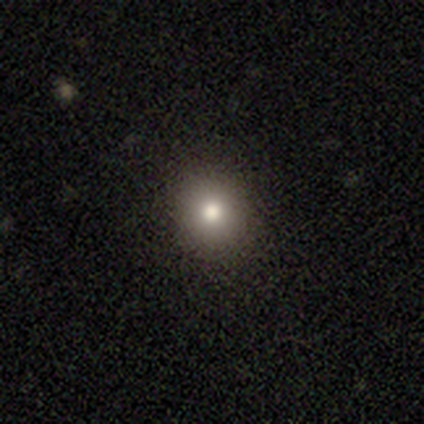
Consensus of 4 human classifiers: Q: Smooth or featured?
A: smooth (100%)
Q: How rounded?
A: round (100%)
Q: Merging?
A: none (100%)